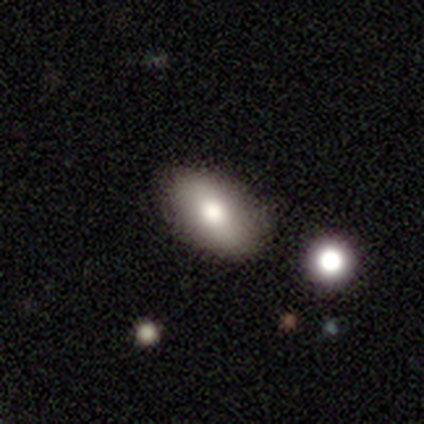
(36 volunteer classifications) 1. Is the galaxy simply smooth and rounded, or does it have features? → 64% smooth, 22% featured or disk, 14% star or artifact.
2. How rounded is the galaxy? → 91% in between, 4% round, 4% cigar-shaped.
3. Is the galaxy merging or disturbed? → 77% none, 10% minor disturbance, 10% major disturbance, 3% merger.